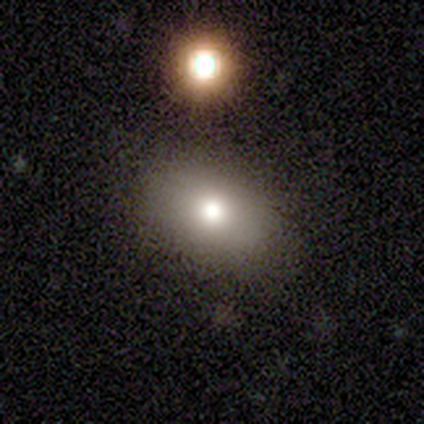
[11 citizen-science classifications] smooth 82%, featured or disk 9%, star or artifact 9%. Down the decision tree: how rounded — in between (100%); merging — none (80%).